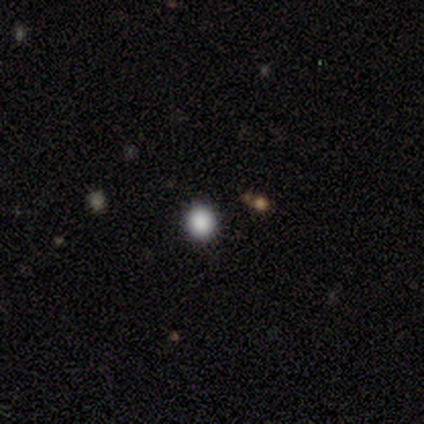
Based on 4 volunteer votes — This is clearly a smooth galaxy (100%). How rounded: clearly round (100%). Merging: clearly none (100%).